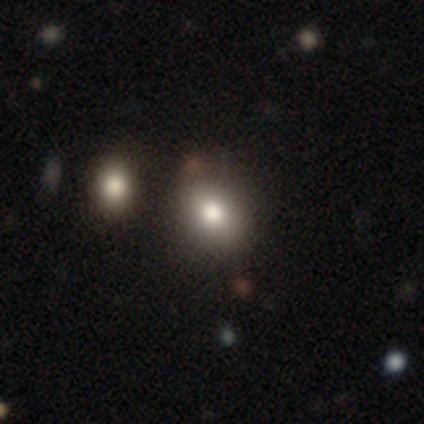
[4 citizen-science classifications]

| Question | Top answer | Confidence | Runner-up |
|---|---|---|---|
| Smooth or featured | smooth | 50% | featured or disk (25%) |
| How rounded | round | 100% | — |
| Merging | none | 67% | minor disturbance (33%) |